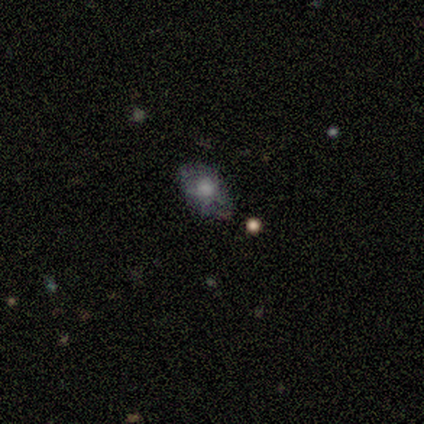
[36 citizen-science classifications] Smooth or featured? smooth (44%)
How rounded? in between (88%)
Merging? none (60%)